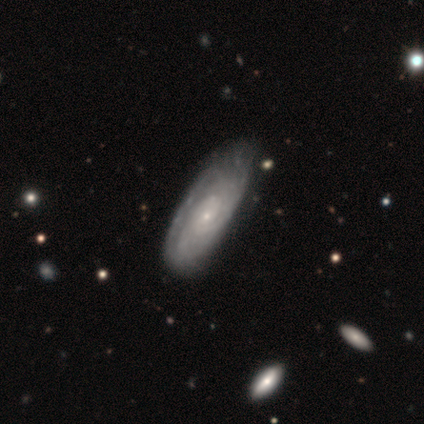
Smooth or featured: featured or disk — 80% (smooth — 20%)
Edge-on disk: no — 100%
Bar: no — 75% (weak — 25%)
Spiral arms: yes — 100%
Spiral winding: tight — 100%
Spiral arm count: can't tell — 100%
Bulge size: small — 100%
Merging: none — 80% (minor disturbance — 20%)